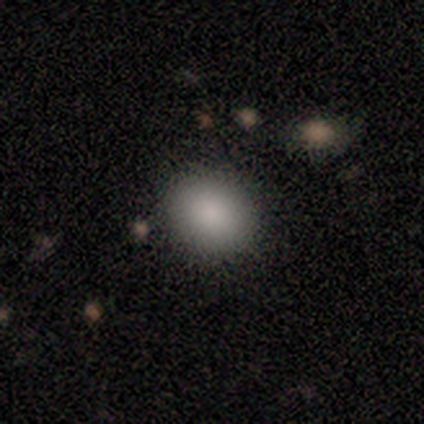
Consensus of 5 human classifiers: Volunteers were most divided on "how rounded": in between: 60%, round: 40%, cigar-shaped: 0%. More confident: smooth or featured — smooth (100%); merging — none (100%).